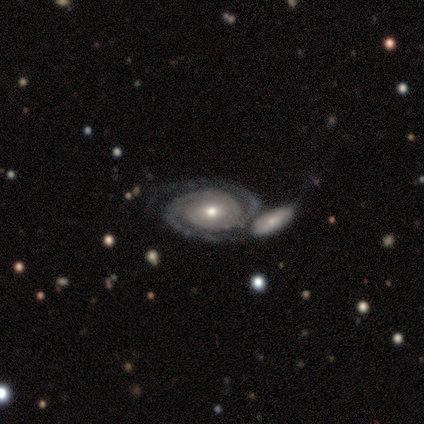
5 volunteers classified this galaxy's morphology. featured or disk 100%, smooth 0%, star or artifact 0%. Down the decision tree: edge-on disk — no (100%); bar — no (60%); spiral arms — yes (100%); spiral arm count — 2 (80%); spiral winding — tight (60%); bulge size — moderate (80%); merging — none (60%).